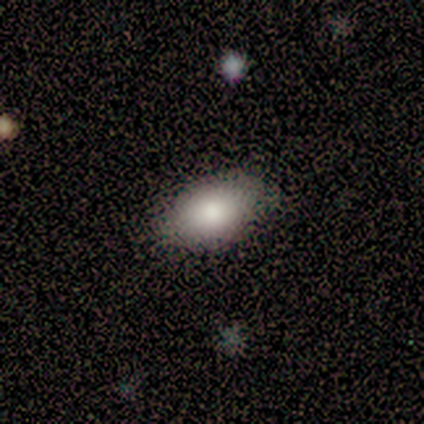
Smooth or featured: smooth — 82% (featured or disk — 10%)
How rounded: in between — 91% (round — 9%)
Merging: none — 92% (minor disturbance — 6%)